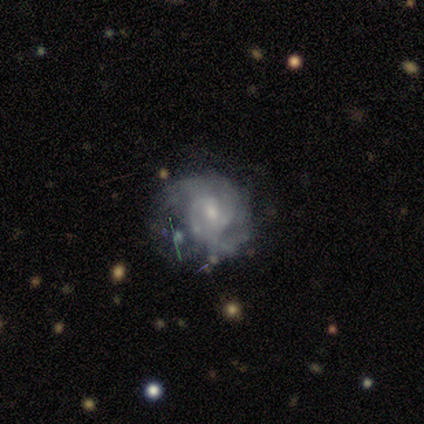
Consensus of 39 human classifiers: Overall: featured or disk (82%). Edge-on disk: no (97%). Bar: no (48%; weak 35%). Spiral arms: yes (90%). Spiral arm count: 2 (36%, tied with can't tell). Spiral winding: tight (57%; medium 36%). Bulge size: small (52%; moderate 42%). Merging: none (44%; minor disturbance 28%).